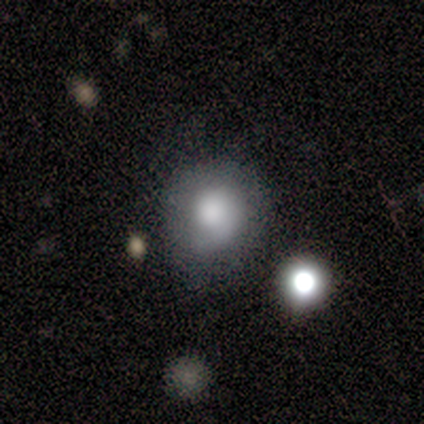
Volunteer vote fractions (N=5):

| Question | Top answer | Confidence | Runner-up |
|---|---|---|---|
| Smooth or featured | smooth | 80% | featured or disk (20%) |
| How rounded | round | 75% | in between (25%) |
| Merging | none | 40% | tied: major disturbance (40%) |